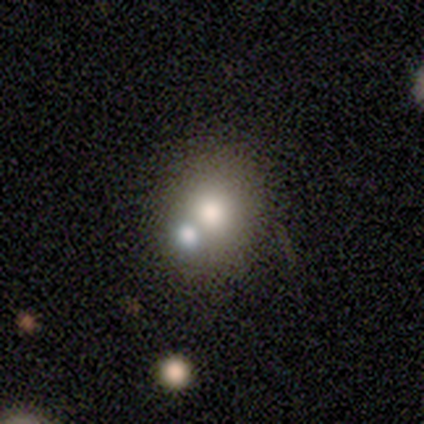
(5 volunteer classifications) Q: Smooth or featured?
A: smooth (40%); tied with: star or artifact (40%)
Q: How rounded?
A: round (100%)
Q: Merging?
A: none (67%); runner-up: merger (33%)